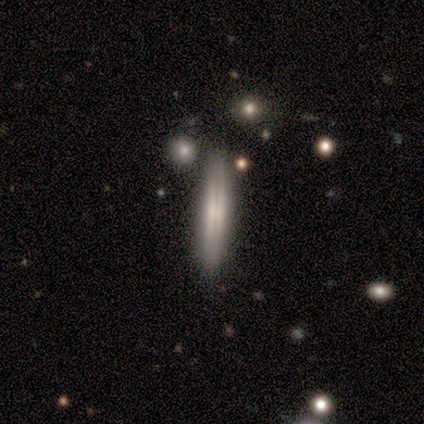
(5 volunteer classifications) Q: Smooth or featured?
A: featured or disk (60%); runner-up: smooth (40%)
Q: Edge-on disk?
A: yes (100%)
Q: Edge-on bulge?
A: none (100%)
Q: Merging?
A: none (80%); runner-up: minor disturbance (20%)